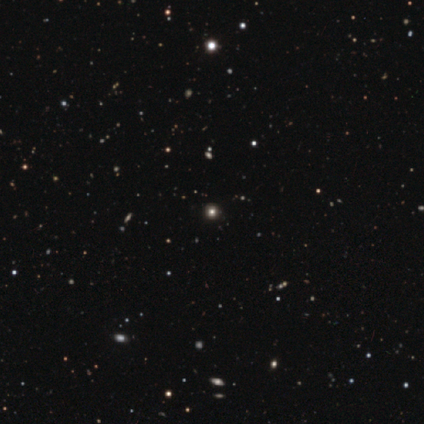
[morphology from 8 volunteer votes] Q: Smooth or featured?
A: smooth (50%); tied with: star or artifact (50%)
Q: How rounded?
A: round (100%)
Q: Merging?
A: none (100%)